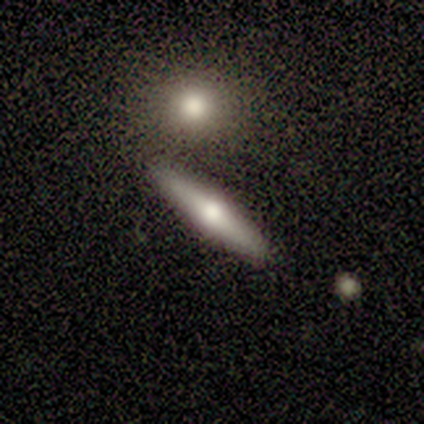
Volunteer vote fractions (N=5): smooth-or-featured: smooth: 40% (tied) | featured or disk: 40% (tied) | star or artifact: 20%
  how-rounded: cigar-shaped: 100% | round: 0% | in between: 0%
  merging: none: 75% | major disturbance: 25% | minor disturbance: 0% | merger: 0%